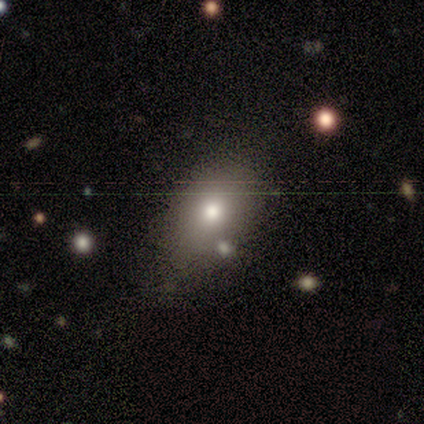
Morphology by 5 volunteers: Volunteers were most divided on "merging": none: 60%, minor disturbance: 40%, major disturbance: 0%, merger: 0%. More confident: how rounded — in between (100%); smooth or featured — smooth (80%).